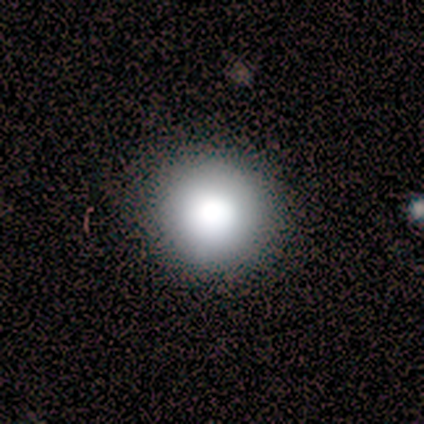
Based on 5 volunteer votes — smooth_or_featured: smooth (p=0.80) [alt: star or artifact p=0.20]
how_rounded: round (p=1.00)
merging: none (p=1.00)